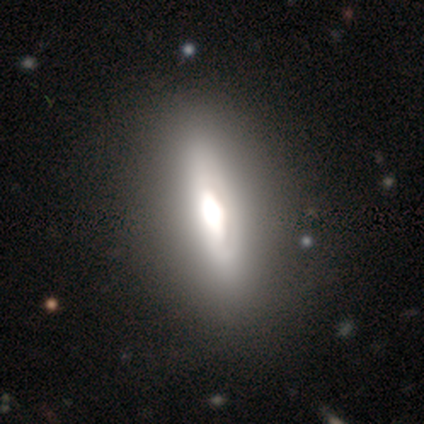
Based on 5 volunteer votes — Smooth or featured: featured or disk — 60% (smooth — 40%)
Edge-on disk: yes — 67% (no — 33%)
Edge-on bulge: boxy — 50% (tied with none — 50%)
Merging: none — 100%